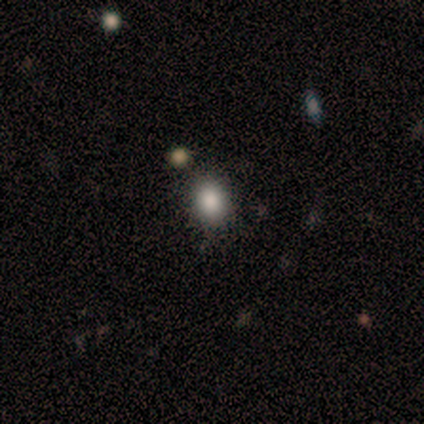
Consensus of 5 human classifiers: Smooth or featured? 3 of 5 (60%) said smooth. How rounded? 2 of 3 (67%) said in between. Merging? 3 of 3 (100%) said none.